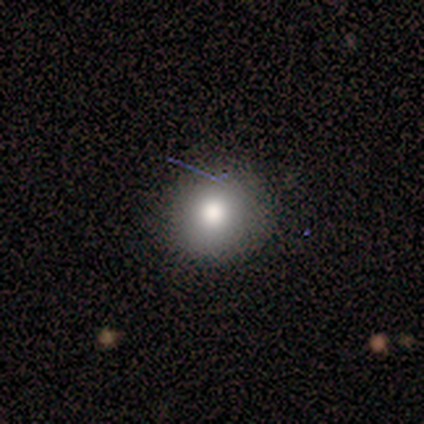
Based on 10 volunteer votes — Overall: smooth (70%; star or artifact 30%). How rounded: round (86%). Merging: none (100%).